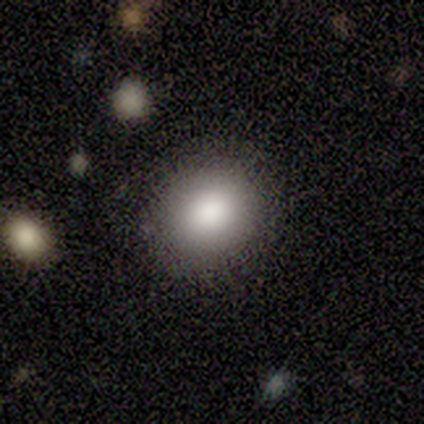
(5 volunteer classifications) This is clearly a smooth galaxy (100%). How rounded: clearly round (80%). Merging: likely none (60%).